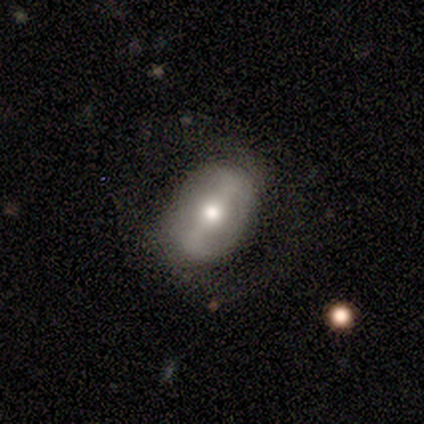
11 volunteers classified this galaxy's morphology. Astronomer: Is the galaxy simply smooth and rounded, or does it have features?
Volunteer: smooth — 45%, tied with featured or disk at 45%.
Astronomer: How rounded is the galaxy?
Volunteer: in between — 80%.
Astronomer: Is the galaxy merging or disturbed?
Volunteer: none — 60%.